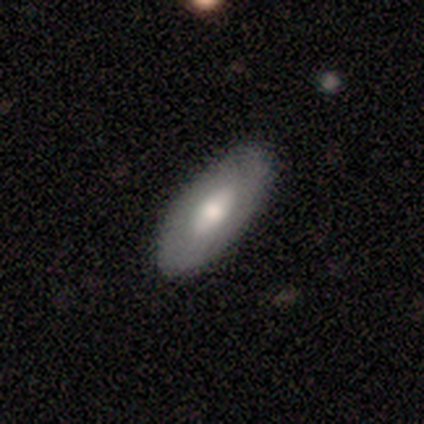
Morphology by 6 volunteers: A smooth galaxy with no disk features (50%, tied with featured or disk) that is in between round and cigar-shaped (100%). Merging: none (100%).